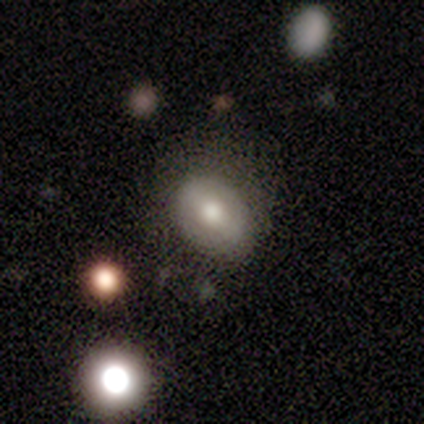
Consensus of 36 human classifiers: smooth-or-featured: smooth: 53% | featured or disk: 39% | star or artifact: 8%
  how-rounded: in between: 74% | round: 26% | cigar-shaped: 0%
  merging: none: 55% | minor disturbance: 27% | major disturbance: 12% | merger: 6%